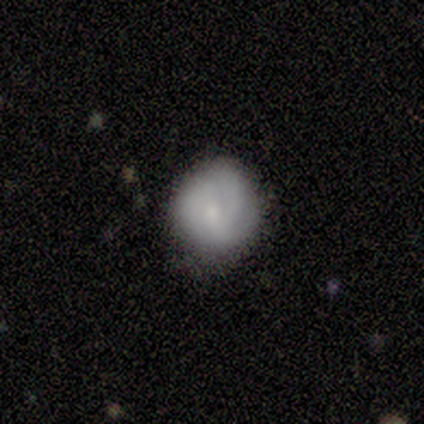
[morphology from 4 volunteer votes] smooth_or_featured: smooth (p=0.75) [alt: featured or disk p=0.25]
how_rounded: round (p=0.67) [alt: in between p=0.33]
merging: none (p=0.75) [alt: minor disturbance p=0.25]